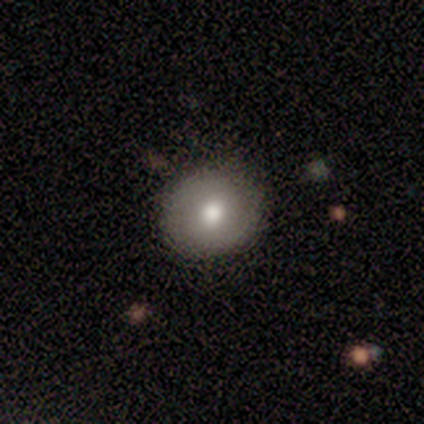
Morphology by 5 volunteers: A smooth galaxy with no disk features (80%) that is round (75%).

Vote fractions:
- Smooth or featured? smooth: 80% / featured or disk: 20% / star or artifact: 0%
- How rounded? round: 75% / in between: 25% / cigar-shaped: 0%
- Merging? none: 80% / major disturbance: 20% / minor disturbance: 0% / merger: 0%